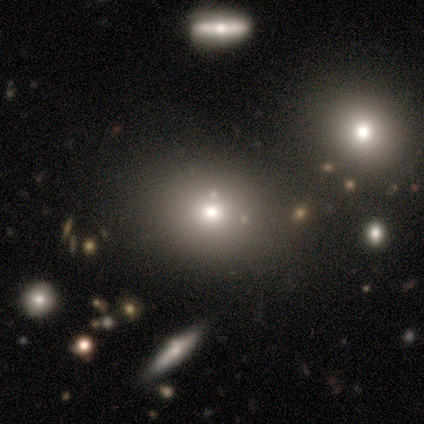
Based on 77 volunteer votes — Smooth or featured?
  - smooth: 74% *
  - star or artifact: 14%
  - featured or disk: 12%
How rounded?
  - round: 68% *
  - in between: 32%
  - cigar-shaped: 0%
Merging?
  - none: 67% *
  - merger: 8%
  - minor disturbance: 6%
  - major disturbance: 2%